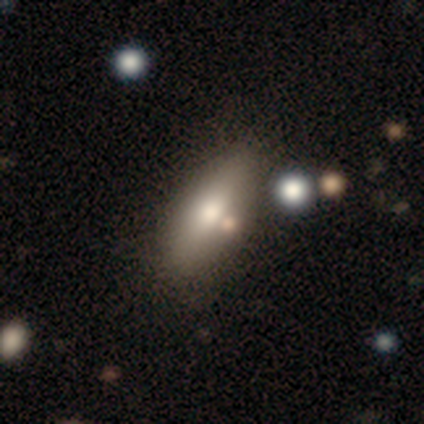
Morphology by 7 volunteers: Smooth or featured? 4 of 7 (57%) said smooth. How rounded? 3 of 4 (75%) said in between. Merging? 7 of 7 (100%) said none.